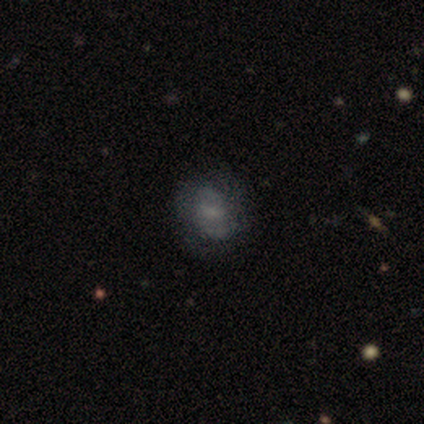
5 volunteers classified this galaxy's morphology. This is likely a smooth galaxy (60%). How rounded: clearly round (100%). Merging: clearly none (80%).